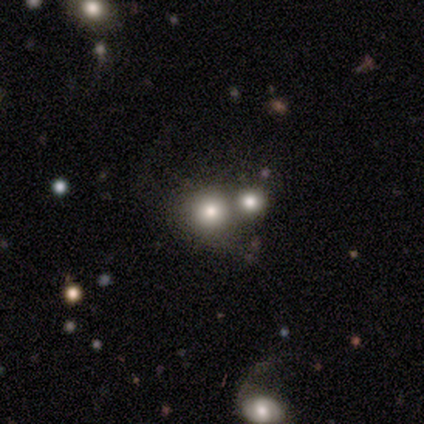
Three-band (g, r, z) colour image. It shows a smooth galaxy with no disk features (71%) that is round (92%). Merging: merger (52%).